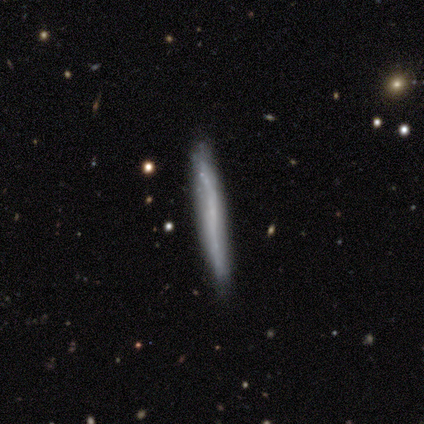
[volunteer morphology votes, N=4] Volunteers were most divided on "smooth or featured": smooth: 75%, featured or disk: 25%, star or artifact: 0%. More confident: how rounded — cigar-shaped (100%); merging — none (100%).